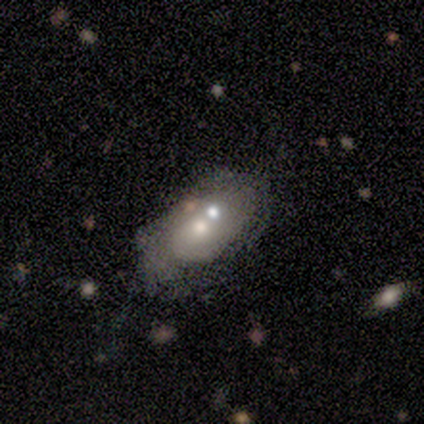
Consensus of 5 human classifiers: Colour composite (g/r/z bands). It shows a smooth galaxy with no disk features (40%, tied with featured or disk) that is in between round and cigar-shaped (100%). Merging: minor disturbance (50%).